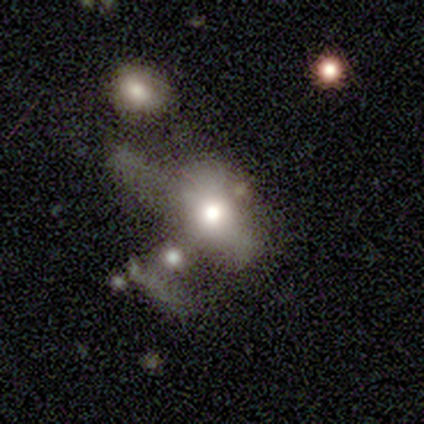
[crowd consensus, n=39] Q: Smooth or featured?
A: smooth (41%); runner-up: featured or disk (38%)
Q: How rounded?
A: in between (88%); runner-up: round (12%)
Q: Merging?
A: major disturbance (39%); tied with: merger (39%)